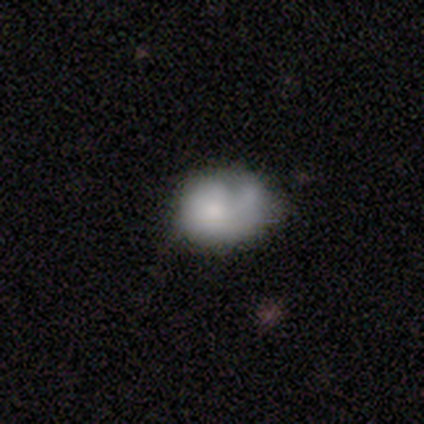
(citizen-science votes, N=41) Smooth or featured: smooth — 46% (tied with featured or disk — 46%)
How rounded: in between — 58% (round — 42%)
Merging: merger — 26% (minor disturbance — 18%)